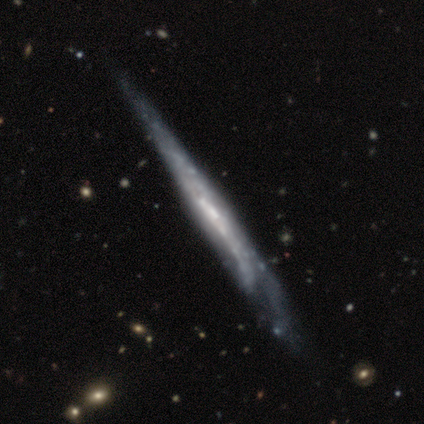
Overall: featured or disk (67%; smooth 33%). Edge-on disk: yes (100%). Edge-on bulge: none (100%). Merging: none (67%; minor disturbance 33%).